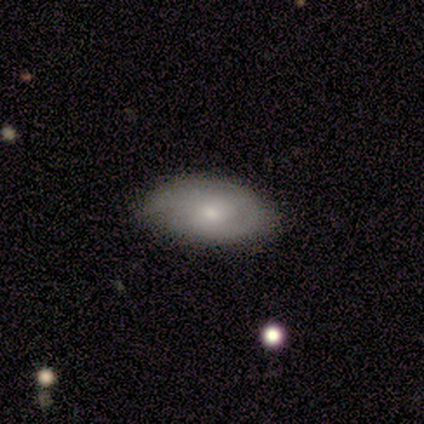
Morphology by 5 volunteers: Volunteers were most divided on "merging": none: 75%, minor disturbance: 25%, major disturbance: 0%, merger: 0%. More confident: how rounded — in between (100%); smooth or featured — smooth (80%).